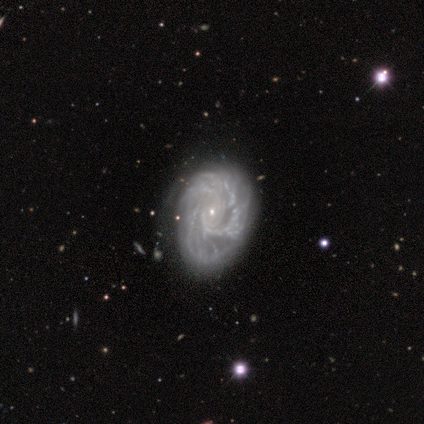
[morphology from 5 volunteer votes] This appears to be a featured or disk galaxy (100%) with no bar (60%), 3 (80%) tight (60%) spiral arms (100%) and a small central bulge (100%). Merging: none (100%).